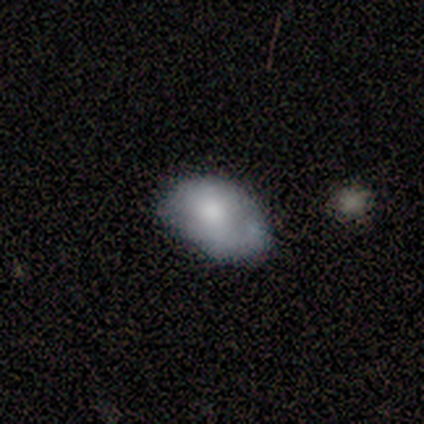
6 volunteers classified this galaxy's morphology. Smooth or featured? smooth (67%)
How rounded? in between (100%)
Merging? minor disturbance (50%)